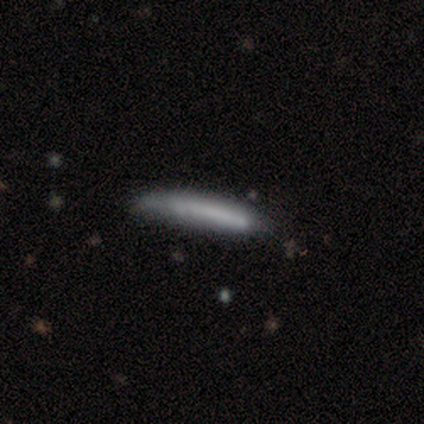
This is likely a smooth galaxy (70%). How rounded: clearly cigar-shaped (100%). Merging: possibly minor disturbance (56%).